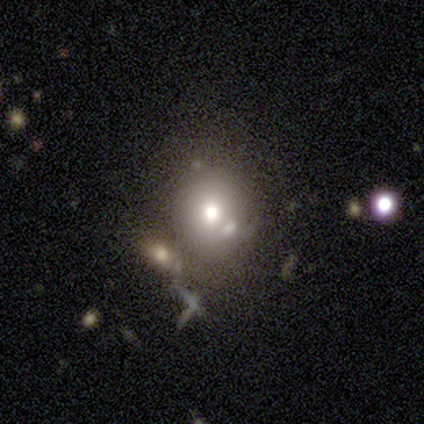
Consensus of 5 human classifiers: This appears to be a smooth galaxy with no disk features (60%) that is in between round and cigar-shaped (67%). Merging: none (50%, tied with merger).